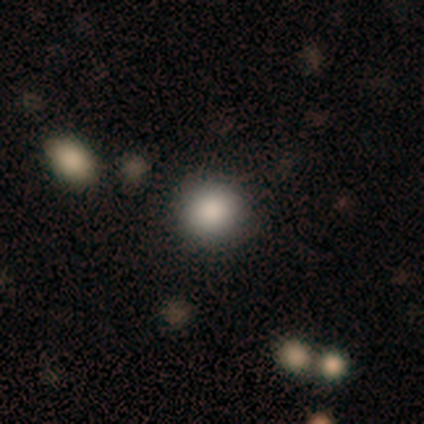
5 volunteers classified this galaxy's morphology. Smooth or featured? 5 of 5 (100%) said smooth. How rounded? 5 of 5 (100%) said round. Merging? 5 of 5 (100%) said none.